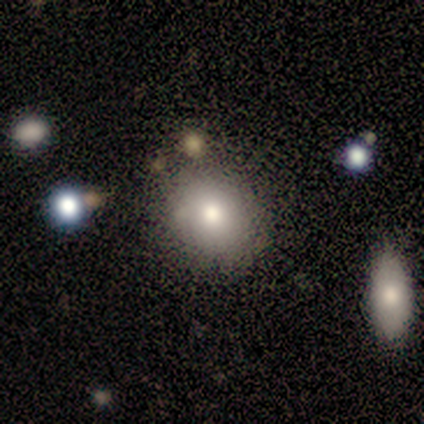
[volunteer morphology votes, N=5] Overall: smooth (60%; featured or disk 40%). How rounded: round (100%). Merging: none (80%).